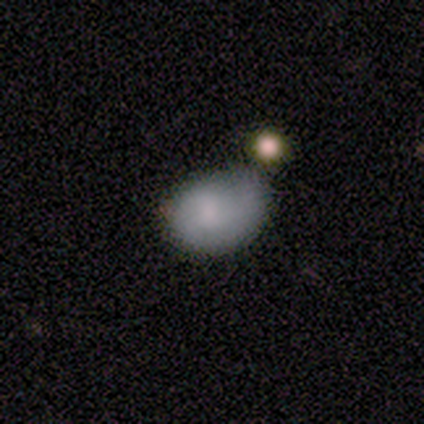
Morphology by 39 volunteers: This is likely a smooth galaxy (64%). How rounded: likely in between (68%). Merging: possibly none (47%).